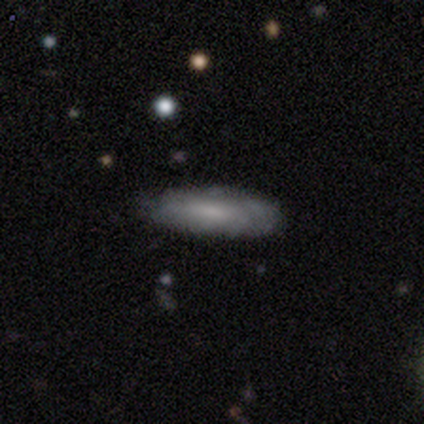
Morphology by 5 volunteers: smooth-or-featured: smooth: 60% | featured or disk: 40% | star or artifact: 0%
  how-rounded: in between: 67% | cigar-shaped: 33% | round: 0%
  merging: none: 60% | minor disturbance: 40% | major disturbance: 0% | merger: 0%